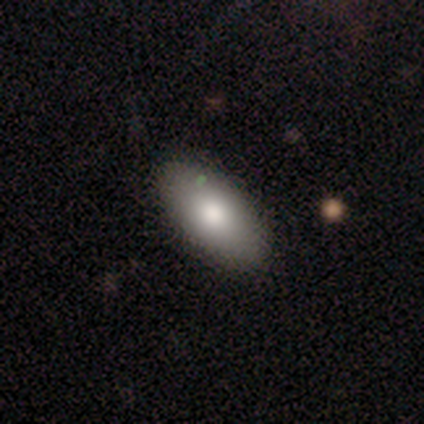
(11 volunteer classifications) smooth-or-featured: smooth: 100% | featured or disk: 0% | star or artifact: 0%
  how-rounded: in between: 100% | round: 0% | cigar-shaped: 0%
  merging: none: 100% | minor disturbance: 0% | major disturbance: 0% | merger: 0%